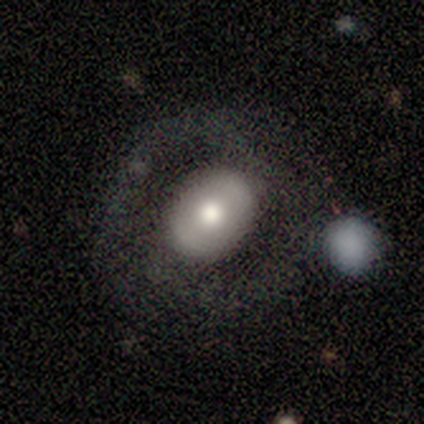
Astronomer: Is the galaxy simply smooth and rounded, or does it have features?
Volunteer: featured or disk — 50% (runner-up: smooth, 33%).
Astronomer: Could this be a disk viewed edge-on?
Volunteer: no — 100%.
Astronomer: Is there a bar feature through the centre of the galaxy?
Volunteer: no — 100%.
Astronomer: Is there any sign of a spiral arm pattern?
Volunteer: no — 100%.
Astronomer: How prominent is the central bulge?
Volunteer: moderate — 83%.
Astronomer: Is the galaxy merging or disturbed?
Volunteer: none — 70%.